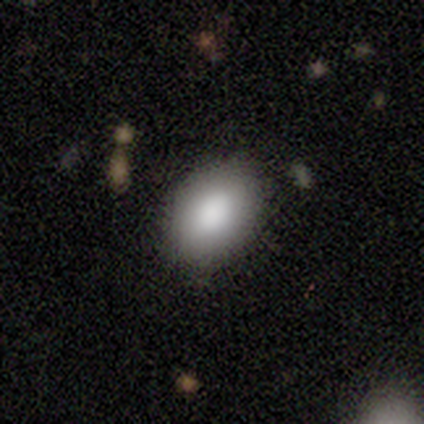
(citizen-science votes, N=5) Smooth or featured? smooth (100%)
How rounded? round (60%)
Merging? none (100%)